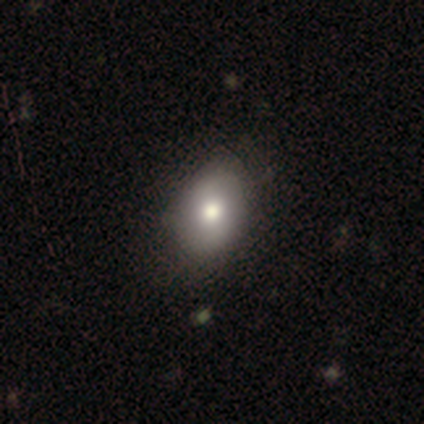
smooth 75%, featured or disk 15%, star or artifact 10%. Down the decision tree: how rounded — in between (73%); merging — none (67%).